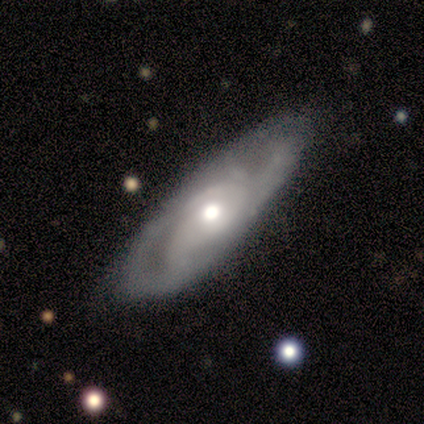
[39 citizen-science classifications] featured or disk 79%, star or artifact 13%, smooth 8%. Down the decision tree: edge-on disk — no (87%); bar — no (85%); spiral arms — yes (85%); spiral arm count — can't tell (52%); spiral winding — medium (43%); bulge size — moderate (56%); merging — none (71%).